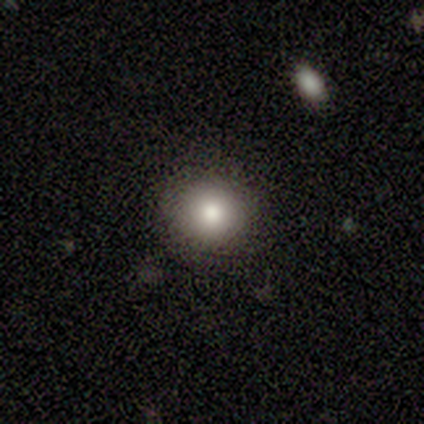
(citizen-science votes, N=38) Morphology: type=smooth (76%); roundness=round (97%); merging=none (85%).